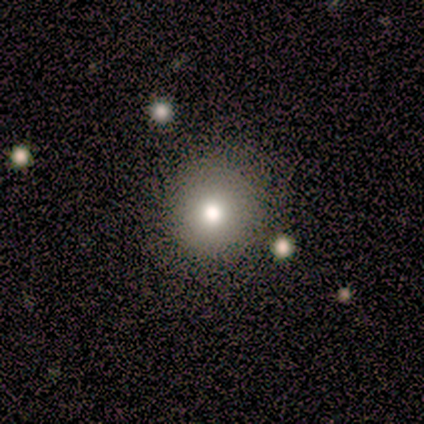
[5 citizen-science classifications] Q: Smooth or featured?
A: smooth (100%)
Q: How rounded?
A: round (100%)
Q: Merging?
A: none (100%)